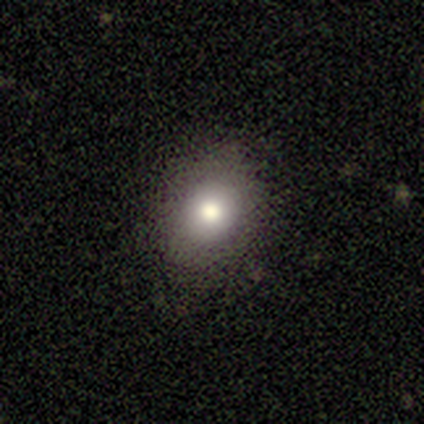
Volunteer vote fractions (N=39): Smooth or featured: smooth — 62% (featured or disk — 21%)
How rounded: in between — 54% (round — 46%)
Merging: none — 78% (minor disturbance — 16%)